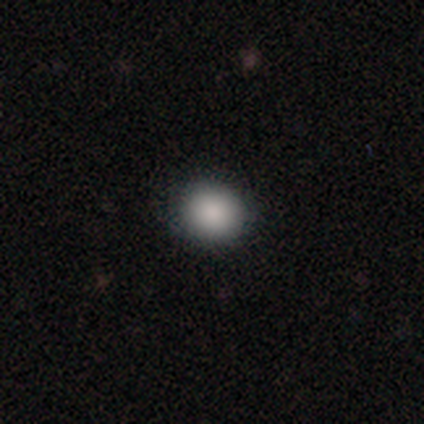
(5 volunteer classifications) Smooth or featured: smooth — 100%
How rounded: round — 100%
Merging: none — 80% (major disturbance — 20%)